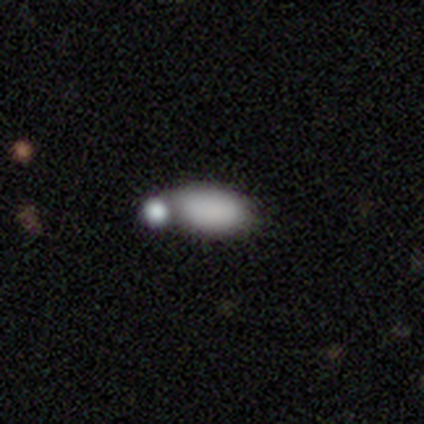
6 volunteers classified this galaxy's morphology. smooth 67%, featured or disk 17%, star or artifact 17%. Down the decision tree: how rounded — in between (100%); merging — none (40%, tied with minor disturbance).